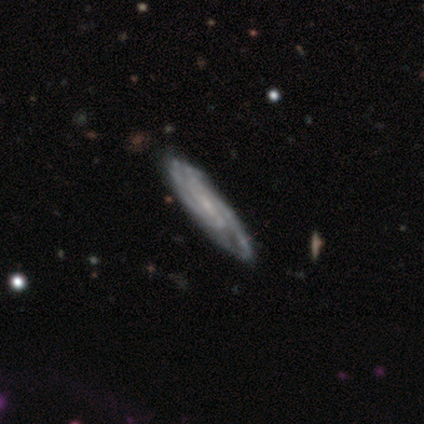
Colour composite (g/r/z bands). It shows a featured or disk galaxy (80%) viewed edge-on (50%, tied with no) with no central bulge (50%, tied with rounded). Merging: none (60%).